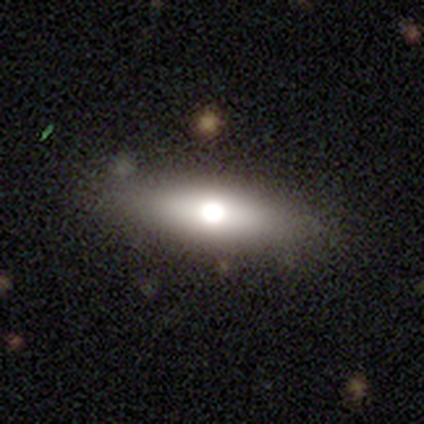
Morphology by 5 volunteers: smooth-or-featured: smooth: 100% | featured or disk: 0% | star or artifact: 0%
  how-rounded: cigar-shaped: 80% | in between: 20% | round: 0%
  merging: none: 100% | minor disturbance: 0% | major disturbance: 0% | merger: 0%